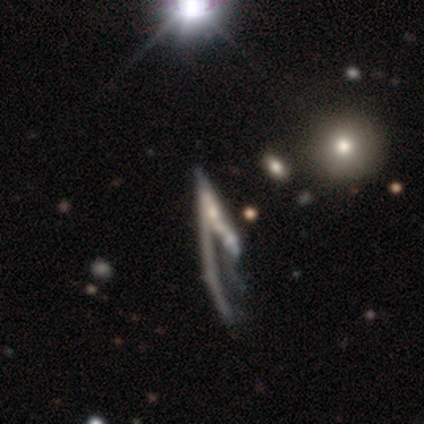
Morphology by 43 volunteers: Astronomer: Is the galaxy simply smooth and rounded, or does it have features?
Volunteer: featured or disk — 79%.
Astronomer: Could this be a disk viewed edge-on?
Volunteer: no — 68%.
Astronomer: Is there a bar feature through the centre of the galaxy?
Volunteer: no — 70%.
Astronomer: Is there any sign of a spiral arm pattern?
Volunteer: no — 61% (runner-up: yes, 39%).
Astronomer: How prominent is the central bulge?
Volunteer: none — 39% (runner-up: moderate, 30%).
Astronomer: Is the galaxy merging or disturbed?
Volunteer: major disturbance — 42% (runner-up: merger, 34%).